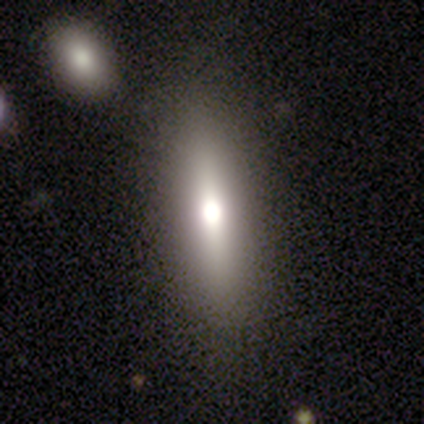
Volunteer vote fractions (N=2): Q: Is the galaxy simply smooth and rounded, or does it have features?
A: smooth — 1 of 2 (50%, tied with featured or disk).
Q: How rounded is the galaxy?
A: in between — 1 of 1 (100%).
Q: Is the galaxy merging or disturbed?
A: none — 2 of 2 (100%).